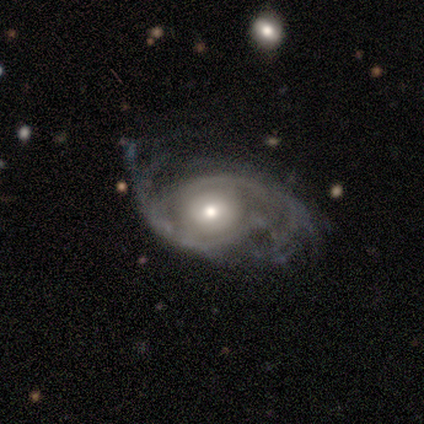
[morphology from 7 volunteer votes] Smooth or featured: featured or disk — 71% (smooth — 14%)
Edge-on disk: no — 100%
Bar: no — 80% (weak — 20%)
Spiral arms: yes — 100%
Spiral winding: medium — 100%
Spiral arm count: 2 — 100%
Bulge size: moderate — 60% (large — 20%)
Merging: none — 33% (tied with minor disturbance — 33%; major disturbance — 33%)